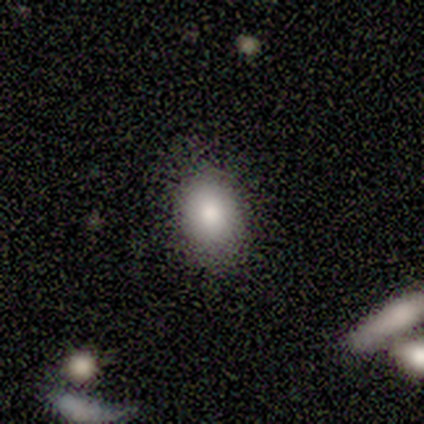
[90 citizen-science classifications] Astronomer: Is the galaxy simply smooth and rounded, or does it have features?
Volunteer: smooth — 87%.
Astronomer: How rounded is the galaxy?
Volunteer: in between — 65%.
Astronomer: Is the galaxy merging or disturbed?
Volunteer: none — 82%.